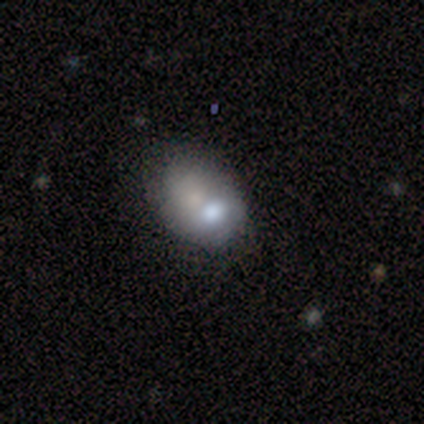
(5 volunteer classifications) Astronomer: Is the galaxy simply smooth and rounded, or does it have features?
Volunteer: smooth — 80%.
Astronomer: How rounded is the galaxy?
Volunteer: in between — 100%.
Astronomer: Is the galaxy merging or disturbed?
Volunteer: major disturbance — 40%, tied with merger at 40%.